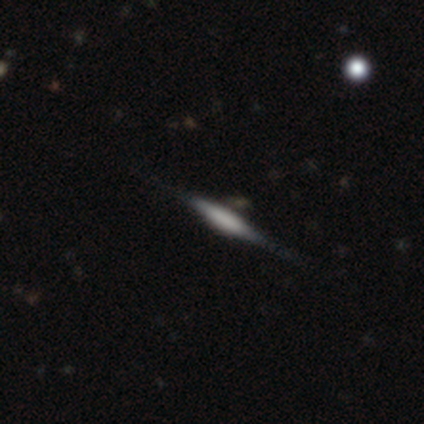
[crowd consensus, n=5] Smooth or featured: smooth — 40% (tied with star or artifact — 40%)
How rounded: cigar-shaped — 100%
Merging: none — 100%